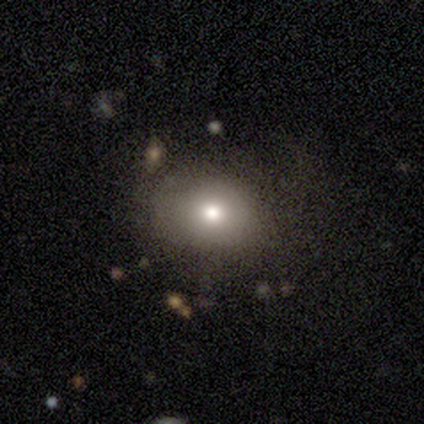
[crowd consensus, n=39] Volunteers were most divided on "how rounded": round: 67%, in between: 33%, cigar-shaped: 0%. More confident: merging — none (75%); smooth or featured — smooth (69%).